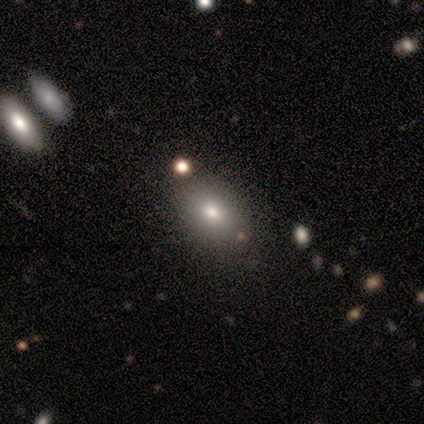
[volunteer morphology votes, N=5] Volunteers were most divided on "how rounded": in between: 80%, round: 20%, cigar-shaped: 0%. More confident: smooth or featured — smooth (100%); merging — none (100%).